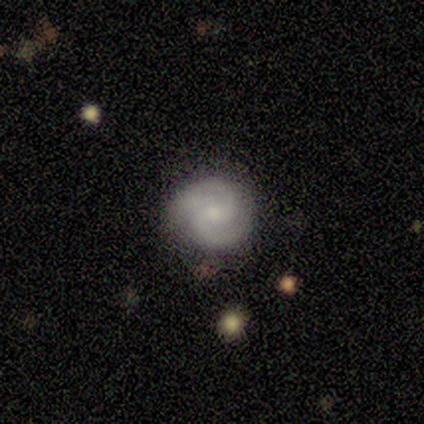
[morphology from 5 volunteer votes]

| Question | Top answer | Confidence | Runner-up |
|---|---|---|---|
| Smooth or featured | featured or disk | 80% | smooth (20%) |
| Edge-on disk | no | 100% | — |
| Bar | weak | 75% | no (25%) |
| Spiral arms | yes | 100% | — |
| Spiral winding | tight | 50% | tied: medium (50%) |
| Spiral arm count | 2 | 100% | — |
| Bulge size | moderate | 50% | tied: small (50%) |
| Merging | none | 60% | minor disturbance (40%) |